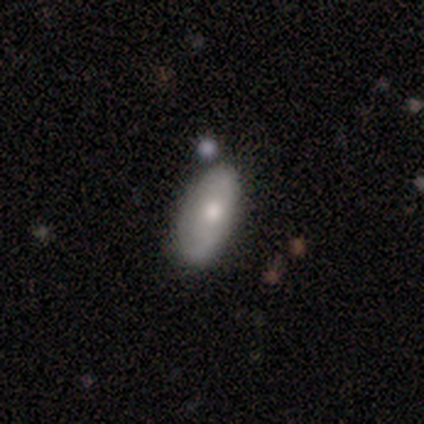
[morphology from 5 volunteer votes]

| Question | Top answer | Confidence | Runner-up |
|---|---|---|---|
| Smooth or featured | smooth | 60% | featured or disk (40%) |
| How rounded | in between | 100% | — |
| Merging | none | 80% | major disturbance (20%) |